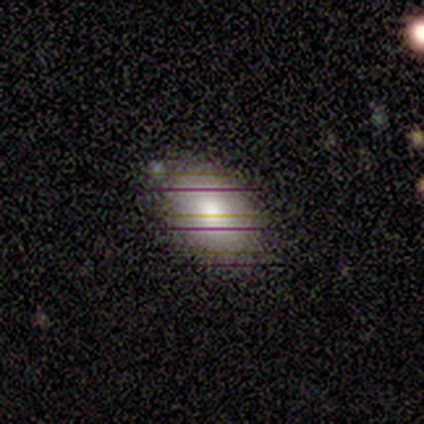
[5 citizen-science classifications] A smooth galaxy with no disk features (80%) that is in between round and cigar-shaped (100%). Merging: none (100%).